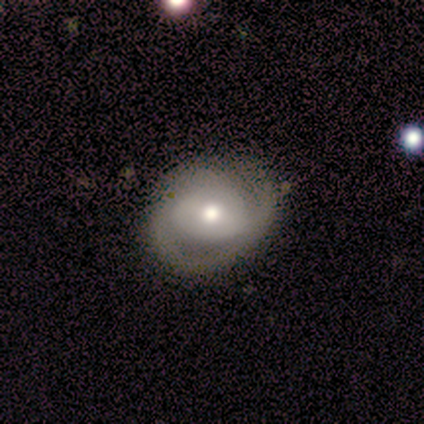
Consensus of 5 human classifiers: Smooth or featured? featured or disk (60%)
Edge-on disk? no (100%)
Bar? weak (67%)
Spiral arms? yes (100%)
Spiral winding? medium (67%)
Spiral arm count? 2 (100%)
Bulge size? moderate (67%)
Merging? none (80%)